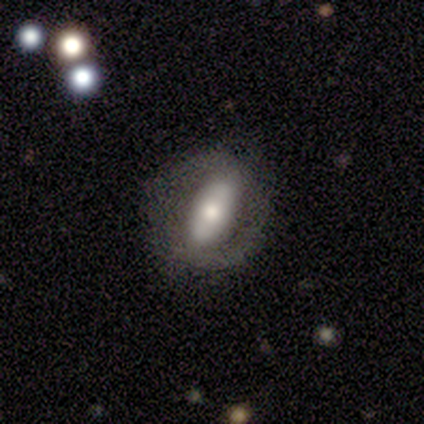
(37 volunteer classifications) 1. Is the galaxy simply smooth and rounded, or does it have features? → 57% featured or disk, 41% smooth, 3% star or artifact.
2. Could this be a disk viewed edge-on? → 86% no, 14% yes.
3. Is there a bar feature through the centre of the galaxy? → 61% strong, 33% no, 6% weak.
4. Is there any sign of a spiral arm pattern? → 56% no, 44% yes.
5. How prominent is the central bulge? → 44% moderate, 39% large, 11% dominant, 6% small, 0% none.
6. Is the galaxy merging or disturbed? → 67% none, 19% minor disturbance, 14% major disturbance, 0% merger.